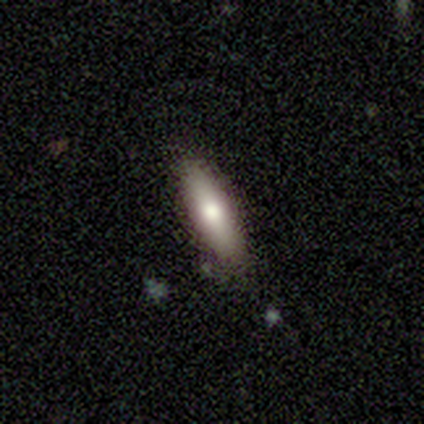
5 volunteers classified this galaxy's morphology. Volunteers were most divided on "how rounded": cigar-shaped: 80%, in between: 20%, round: 0%. More confident: smooth or featured — smooth (100%); merging — none (80%).